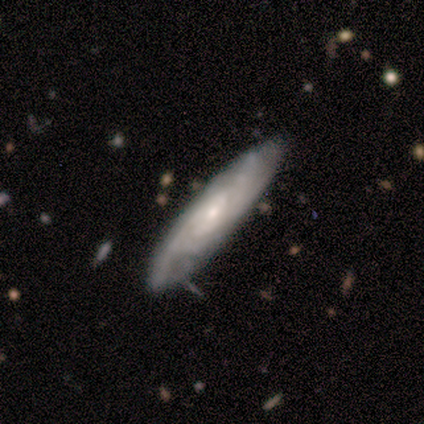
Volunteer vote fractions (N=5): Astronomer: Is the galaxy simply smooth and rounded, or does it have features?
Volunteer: featured or disk — 80%.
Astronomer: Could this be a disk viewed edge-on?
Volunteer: no — 75%.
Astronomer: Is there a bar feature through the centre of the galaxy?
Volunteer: no — 100%.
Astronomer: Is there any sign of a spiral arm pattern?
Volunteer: yes — 67%.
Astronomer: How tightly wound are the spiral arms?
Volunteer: tight — 100%.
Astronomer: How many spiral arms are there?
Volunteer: can't tell — 100%.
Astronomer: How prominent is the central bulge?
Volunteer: small — 100%.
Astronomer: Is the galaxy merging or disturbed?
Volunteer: none — 100%.